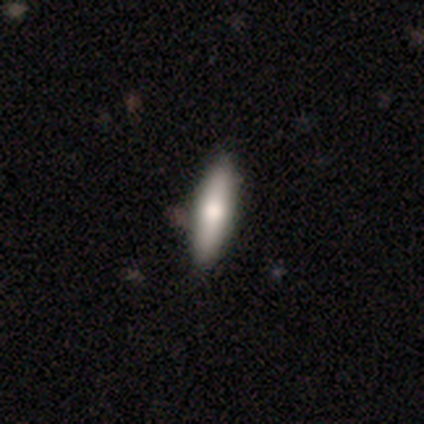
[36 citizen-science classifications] Smooth or featured? smooth (67%)
How rounded? cigar-shaped (67%)
Merging? none (85%)